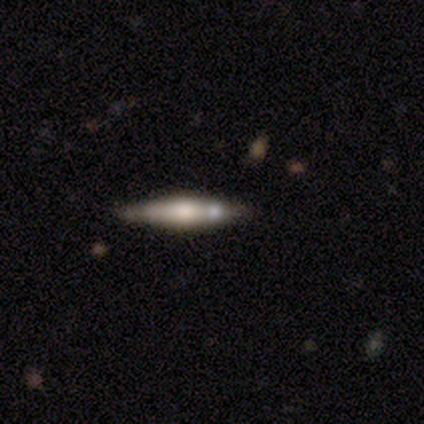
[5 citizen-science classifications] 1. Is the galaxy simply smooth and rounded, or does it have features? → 80% featured or disk, 20% smooth, 0% star or artifact.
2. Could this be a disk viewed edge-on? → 100% yes, 0% no.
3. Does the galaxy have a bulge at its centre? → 75% rounded, 25% boxy, 0% none.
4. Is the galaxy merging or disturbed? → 60% none, 20% minor disturbance, 20% merger, 0% major disturbance.